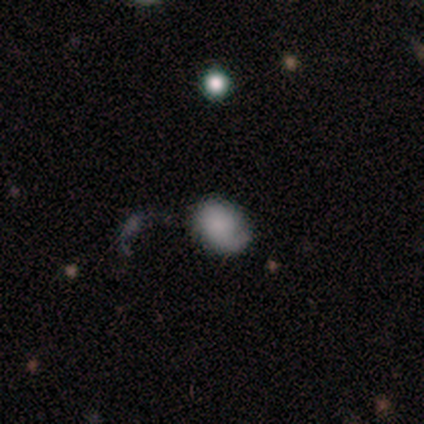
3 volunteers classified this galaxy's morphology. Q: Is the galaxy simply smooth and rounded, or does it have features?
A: smooth — 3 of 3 (100%).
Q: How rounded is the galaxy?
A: in between — 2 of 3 (67%).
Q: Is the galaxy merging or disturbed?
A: merger — 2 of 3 (67%).